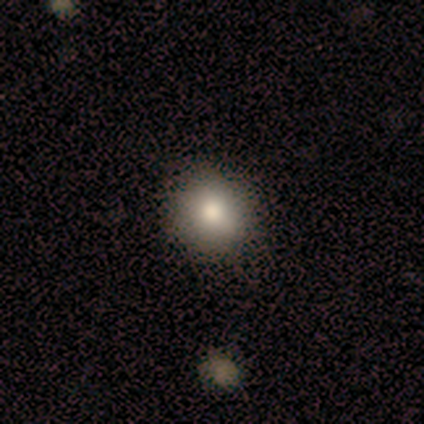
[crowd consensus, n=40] Smooth or featured?
  - smooth: 90% *
  - featured or disk: 5%
  - star or artifact: 5%
How rounded?
  - round: 89% *
  - in between: 11%
  - cigar-shaped: 0%
Merging?
  - none: 89% *
  - minor disturbance: 8%
  - merger: 3%
  - major disturbance: 0%